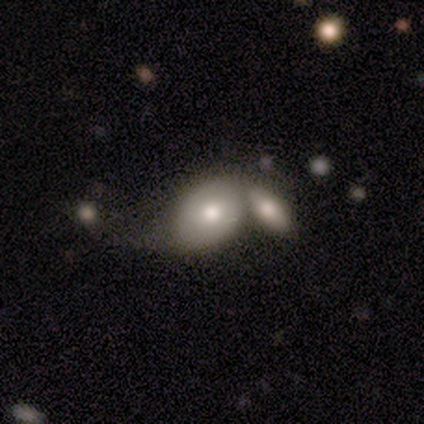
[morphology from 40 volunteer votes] Smooth or featured? smooth (75%)
How rounded? in between (90%)
Merging? merger (58%)